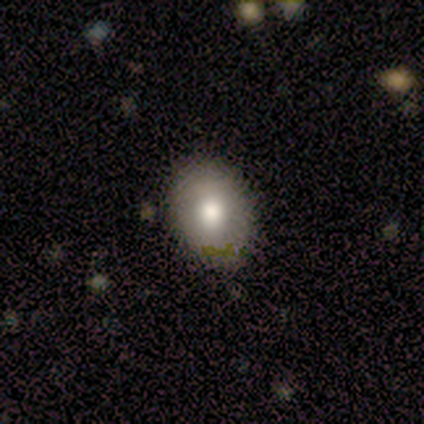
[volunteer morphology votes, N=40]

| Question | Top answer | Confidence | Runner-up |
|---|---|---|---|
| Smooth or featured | smooth | 65% | featured or disk (28%) |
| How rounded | in between | 73% | round (27%) |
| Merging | none | 78% | minor disturbance (19%) |